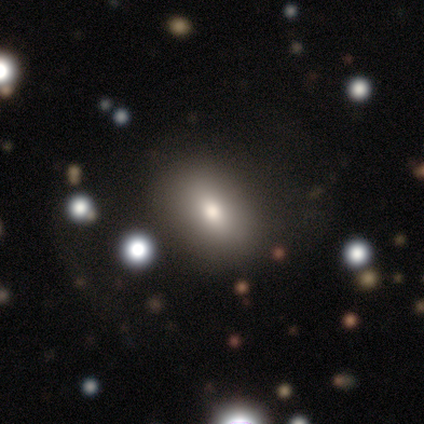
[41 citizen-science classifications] smooth_or_featured: smooth (p=0.73) [alt: star or artifact p=0.17]
how_rounded: in between (p=0.83) [alt: round p=0.17]
merging: none (p=0.88) [alt: minor disturbance p=0.09]